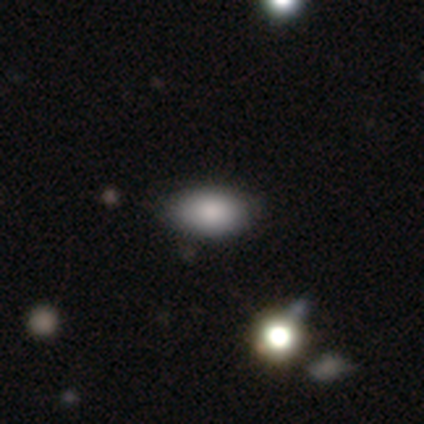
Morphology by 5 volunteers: Volunteers were most divided on "merging": none: 80%, minor disturbance: 20%, major disturbance: 0%, merger: 0%. More confident: smooth or featured — smooth (100%); how rounded — in between (100%).